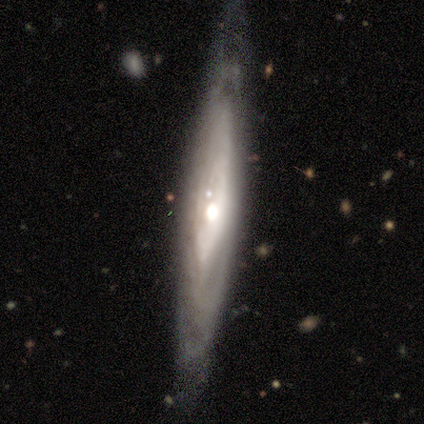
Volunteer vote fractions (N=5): Q: Smooth or featured?
A: featured or disk (100%)
Q: Edge-on disk?
A: yes (80%); runner-up: no (20%)
Q: Edge-on bulge?
A: rounded (75%); runner-up: none (25%)
Q: Merging?
A: none (100%)